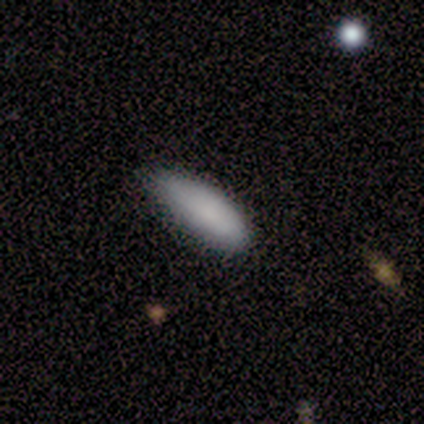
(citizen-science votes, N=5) smooth_or_featured: smooth (p=0.80) [alt: featured or disk p=0.20]
how_rounded: in between (p=0.50) [tied with: cigar-shaped p=0.50]
merging: none (p=0.80) [alt: major disturbance p=0.20]